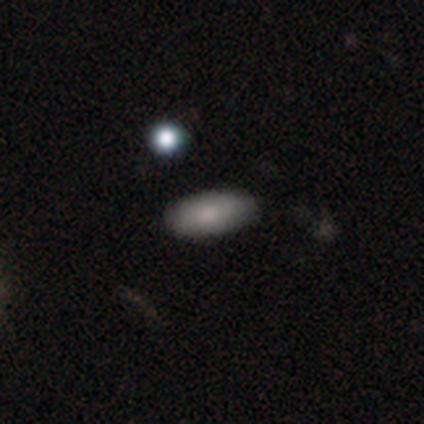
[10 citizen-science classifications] smooth 70%, featured or disk 20%, star or artifact 10%. Down the decision tree: how rounded — in between (100%); merging — none (89%).